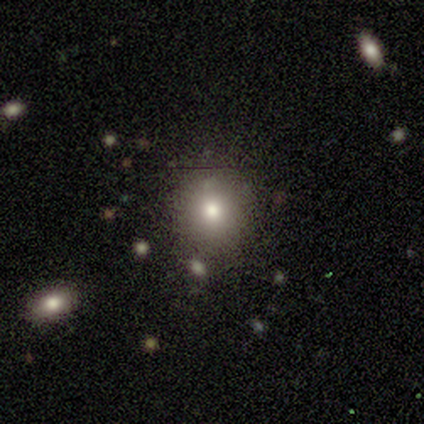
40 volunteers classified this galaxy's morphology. smooth-or-featured: smooth: 75% | star or artifact: 18% | featured or disk: 8%
  how-rounded: round: 83% | in between: 13% | cigar-shaped: 3%
  merging: none: 79% | minor disturbance: 12% | major disturbance: 6% | merger: 3%